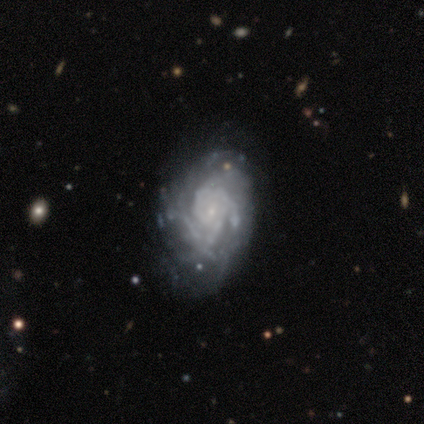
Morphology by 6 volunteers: smooth-or-featured: featured or disk: 83% | star or artifact: 17% | smooth: 0%
  disk-edge-on: no: 100% | yes: 0%
    bar: weak: 40% (tied) | no: 40% (tied) | strong: 20%
    has-spiral-arms: yes: 100% | no: 0%
      spiral-winding: tight: 60% | medium: 40% | loose: 0%
      spiral-arm-count: can't tell: 60% | 2: 40% | 1: 0% | 3: 0% | 4: 0% | more than 4: 0%
    bulge-size: small: 80% | moderate: 20% | dominant: 0% | large: 0% | none: 0%
  merging: none: 40% (tied) | minor disturbance: 40% (tied) | major disturbance: 20% | merger: 0%